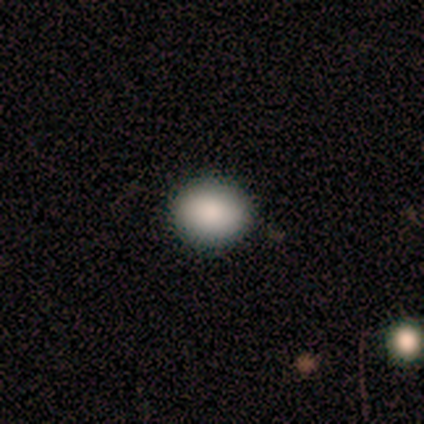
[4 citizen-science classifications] Volunteers were most divided on "how rounded" (2-way tie): round: 50%, in between: 50%, cigar-shaped: 0%. More confident: smooth or featured — smooth (100%); merging — none (100%).